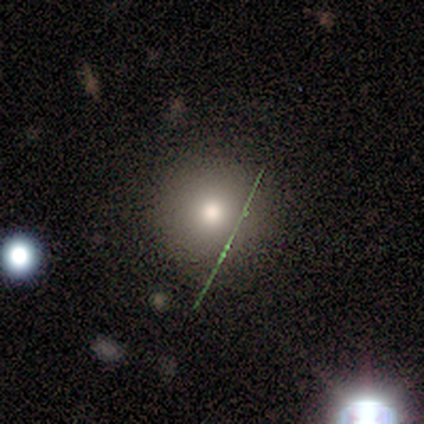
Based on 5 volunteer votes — Smooth or featured? smooth (60%)
How rounded? round (100%)
Merging? none (100%)